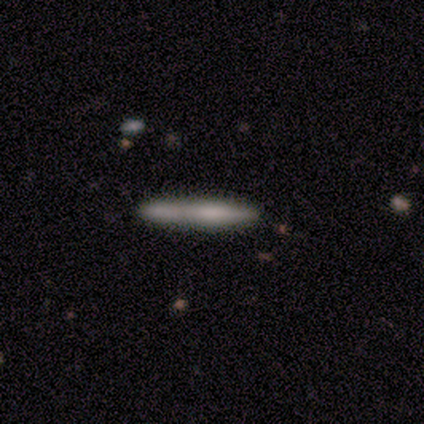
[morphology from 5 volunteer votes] A featured or disk galaxy (60%) viewed edge-on (67%) with no central bulge (50%, tied with rounded). Merging: none (80%).